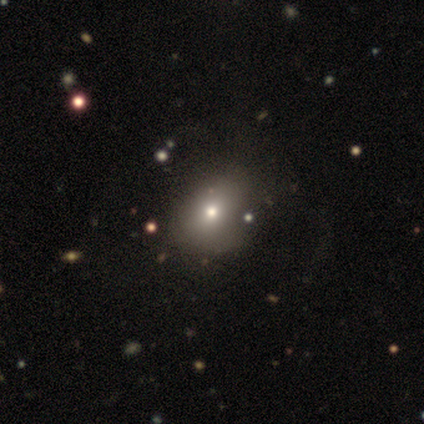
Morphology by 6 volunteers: Volunteers were most divided on "how rounded": in between: 67%, round: 33%, cigar-shaped: 0%. More confident: smooth or featured — smooth (100%); merging — none (67%).